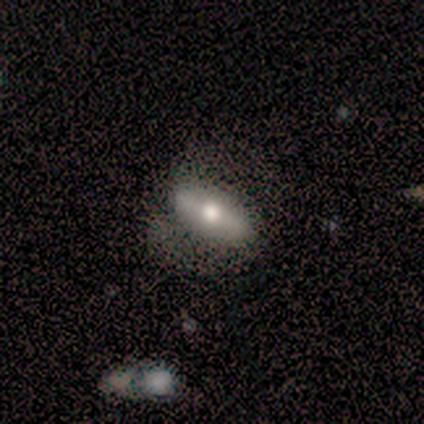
Smooth or featured? smooth (50%)
How rounded? in between (100%)
Merging? none (67%)